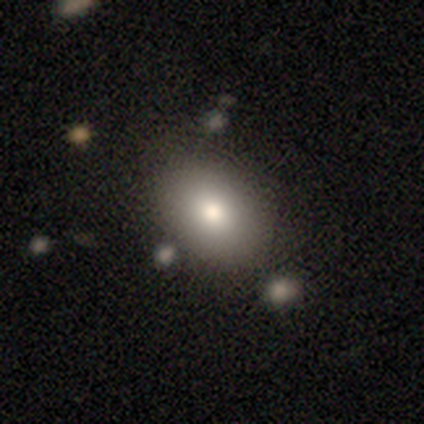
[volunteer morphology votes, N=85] smooth_or_featured: smooth (p=0.76) [alt: star or artifact p=0.13]
how_rounded: in between (p=0.74) [alt: round p=0.25]
merging: none (p=0.73) [alt: minor disturbance p=0.16]